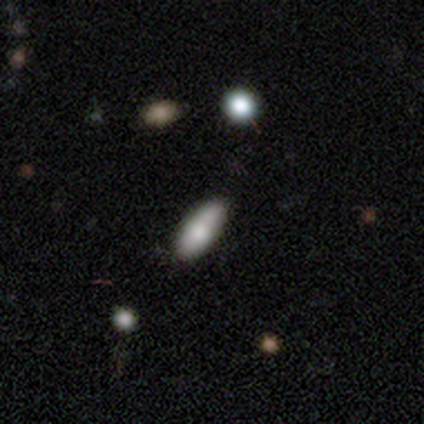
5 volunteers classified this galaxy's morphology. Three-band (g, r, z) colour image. It shows a smooth galaxy with no disk features (60%) that is in between round and cigar-shaped (67%). Merging: none (80%).